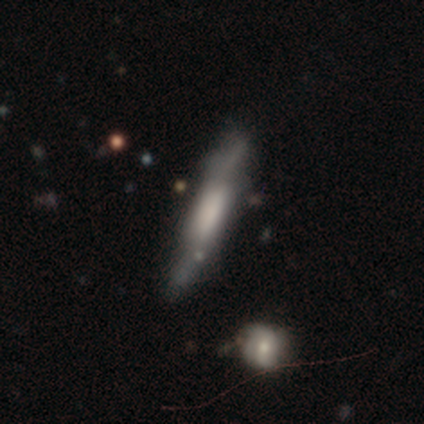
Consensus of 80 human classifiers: featured or disk 52%, smooth 44%, star or artifact 4%. Down the decision tree: edge-on disk — yes (86%); edge-on bulge — boxy (72%); merging — none (38%).